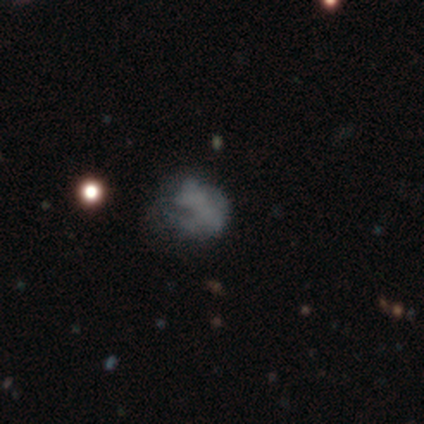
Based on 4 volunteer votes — Morphology: type=featured or disk (50%); edge-on=no (100%); bar=no (100%); spiral arms=no (100%); bulge=none (100%); merging=none (67%).